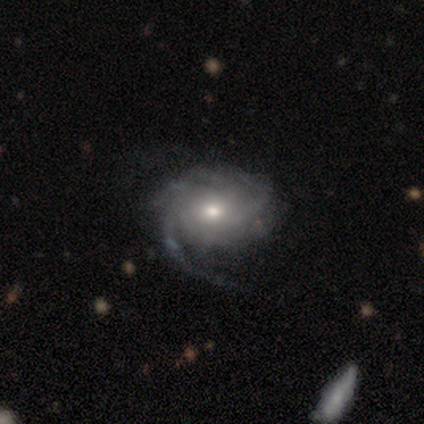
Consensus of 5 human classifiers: Q: Smooth or featured?
A: featured or disk (80%); runner-up: smooth (20%)
Q: Edge-on disk?
A: no (100%)
Q: Bar?
A: no (75%); runner-up: weak (25%)
Q: Spiral arms?
A: yes (100%)
Q: Spiral winding?
A: medium (75%); runner-up: tight (25%)
Q: Spiral arm count?
A: can't tell (50%); runner-up: 3 (25%)
Q: Bulge size?
A: moderate (75%); runner-up: small (25%)
Q: Merging?
A: none (60%); runner-up: major disturbance (20%)